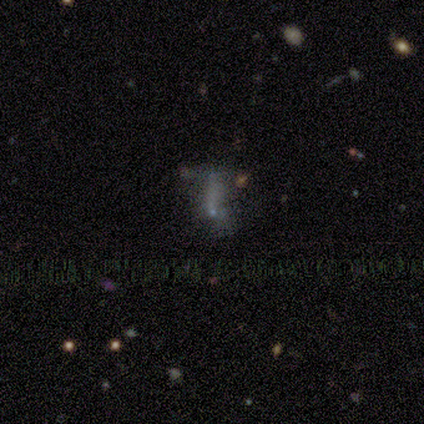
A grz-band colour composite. It shows a smooth galaxy with no disk features (50%) that is cigar-shaped (50%). Merging: none (57%).